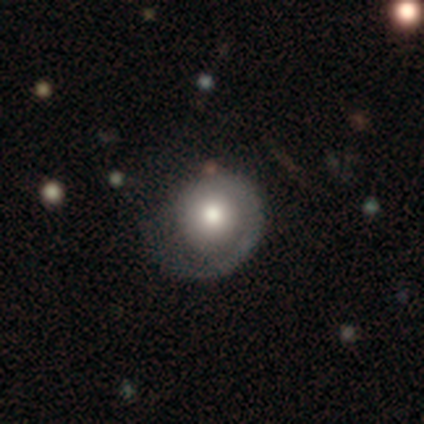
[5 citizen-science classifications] Smooth or featured? smooth (60%)
How rounded? in between (67%)
Merging? minor disturbance (60%)